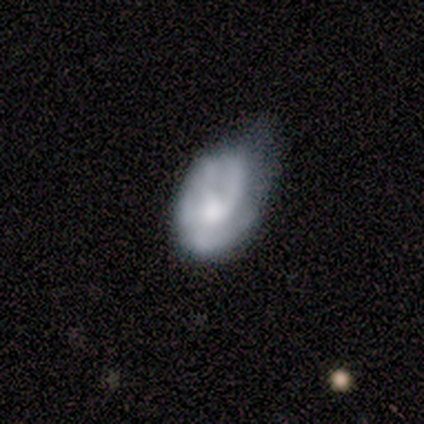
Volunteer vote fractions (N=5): Smooth or featured?
  - featured or disk: 60% *
  - smooth: 40%
  - star or artifact: 0%
Edge-on disk?
  - no: 100% *
  - yes: 0%
Bar?
  - no: 100% *
  - strong: 0%
  - weak: 0%
Spiral arms?
  - no: 67% *
  - yes: 33%
Bulge size?
  - none: 67% *
  - moderate: 33%
  - dominant: 0%
  - large: 0%
  - small: 0%
Merging?
  - minor disturbance: 60% *
  - none: 20%
  - major disturbance: 20%
  - merger: 0%